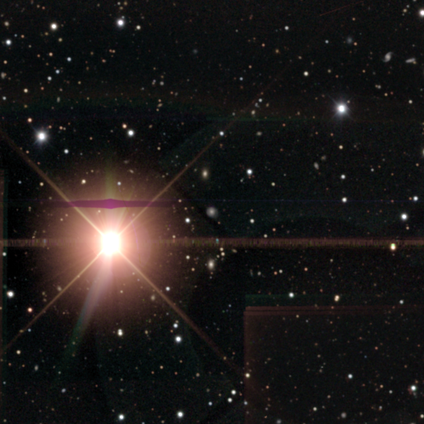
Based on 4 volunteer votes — smooth-or-featured: star or artifact: 100% | smooth: 0% | featured or disk: 0%